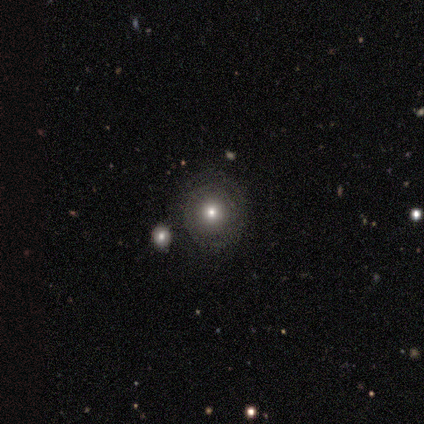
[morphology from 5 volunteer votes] This appears to be a smooth galaxy with no disk features (80%) that is round (100%). Merging: none (75%).